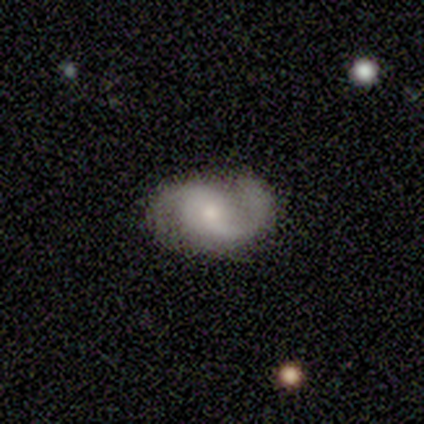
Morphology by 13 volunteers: smooth-or-featured: featured or disk: 92% | smooth: 8% | star or artifact: 0%
  disk-edge-on: no: 100% | yes: 0%
    bar: no: 50% | weak: 33% | strong: 17%
    has-spiral-arms: yes: 100% | no: 0%
      spiral-winding: medium: 50% | tight: 25% | loose: 25%
      spiral-arm-count: 2: 83% | 3: 8% | can't tell: 8% | 1: 0% | 4: 0% | more than 4: 0%
    bulge-size: small: 67% | moderate: 25% | large: 8% | dominant: 0% | none: 0%
  merging: none: 92% | minor disturbance: 8% | major disturbance: 0% | merger: 0%